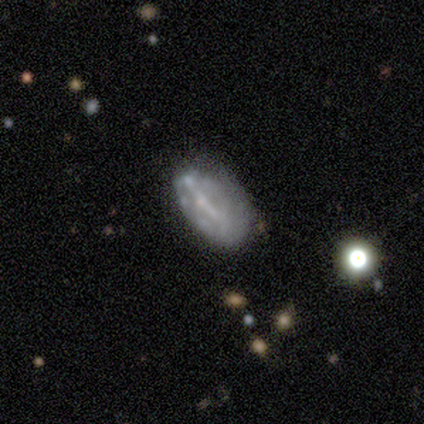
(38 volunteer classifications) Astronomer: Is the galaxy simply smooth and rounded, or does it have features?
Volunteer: featured or disk — 63%.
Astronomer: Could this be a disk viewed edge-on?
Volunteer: no — 96%.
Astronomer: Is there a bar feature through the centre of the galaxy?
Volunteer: no — 48% (runner-up: strong, 30%).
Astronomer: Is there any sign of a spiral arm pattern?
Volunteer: no — 83%.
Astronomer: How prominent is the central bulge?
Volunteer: none — 57% (runner-up: small, 43%).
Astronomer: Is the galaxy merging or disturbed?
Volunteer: none — 47% (runner-up: minor disturbance, 39%).